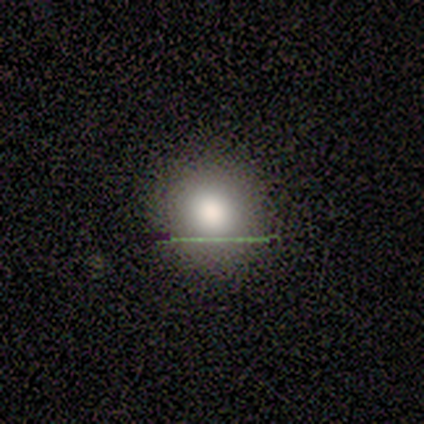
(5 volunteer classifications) A smooth galaxy with no disk features (80%) that is round (100%).

Vote fractions:
- Smooth or featured? smooth: 80% / star or artifact: 20% / featured or disk: 0%
- How rounded? round: 100% / in between: 0% / cigar-shaped: 0%
- Merging? none: 75% / minor disturbance: 25% / major disturbance: 0% / merger: 0%